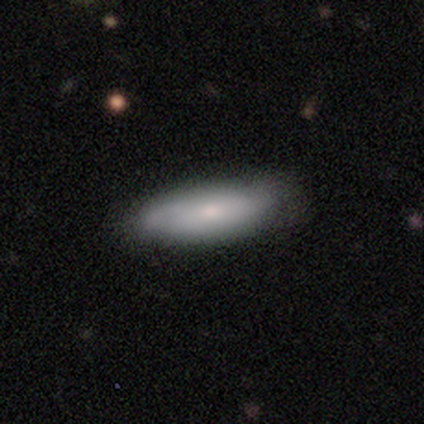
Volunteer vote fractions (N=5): Morphology: type=smooth (60%); roundness=cigar-shaped (67%); merging=none (80%).